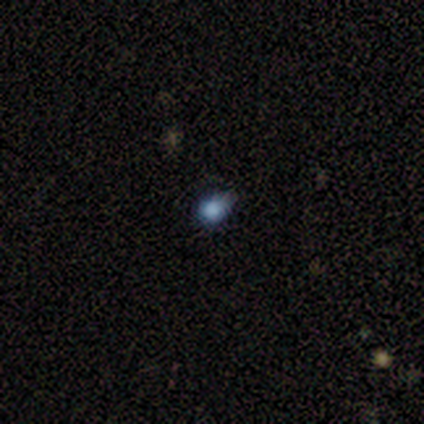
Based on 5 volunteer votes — smooth 60%, star or artifact 40%, featured or disk 0%. Down the decision tree: how rounded — in between (67%); merging — none (67%).